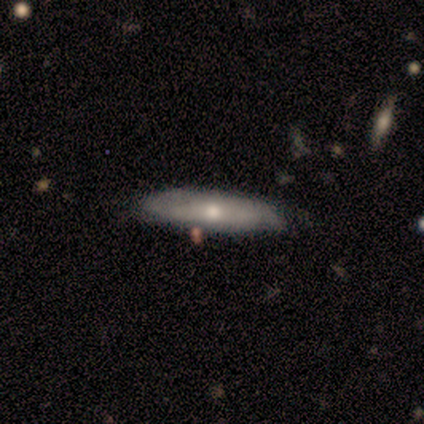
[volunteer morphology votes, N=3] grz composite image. It shows a smooth galaxy with no disk features (100%) that is in between round and cigar-shaped (67%). Merging: minor disturbance (67%).